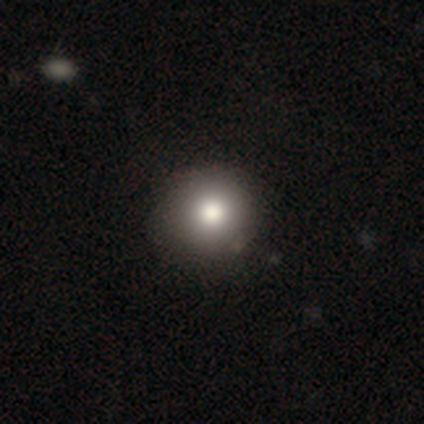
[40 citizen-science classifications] Q: Smooth or featured?
A: smooth (72%); runner-up: star or artifact (18%)
Q: How rounded?
A: round (100%)
Q: Merging?
A: none (61%); runner-up: minor disturbance (3%)